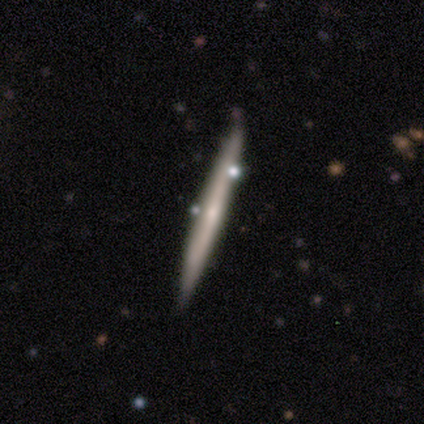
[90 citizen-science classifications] A featured or disk galaxy (52%) viewed edge-on (96%) with no central bulge (73%).

Vote fractions:
- Smooth or featured? featured or disk: 52% / smooth: 43% / star or artifact: 4%
- Edge-on disk? yes: 96% / no: 4%
- Edge-on bulge? none: 73% / rounded: 27% / boxy: 0%
- Merging? none: 79% / minor disturbance: 12% / merger: 8% / major disturbance: 1%